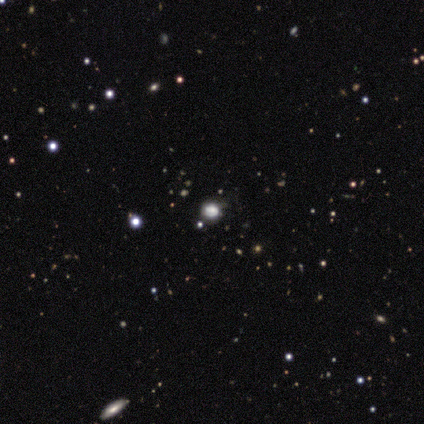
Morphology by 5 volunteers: Smooth or featured? 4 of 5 (80%) said smooth. How rounded? 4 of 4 (100%) said round. Merging? 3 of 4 (75%) said none.